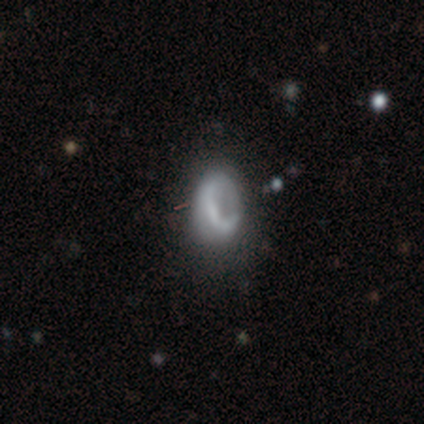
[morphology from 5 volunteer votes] Smooth or featured? 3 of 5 (60%) said featured or disk. Edge-on disk? 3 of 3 (100%) said no. Bar? 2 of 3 (67%) said no. Spiral arms? 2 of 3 (67%) said no. Bulge size? 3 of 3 (100%) said none. Merging? 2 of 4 (50%) said major disturbance.